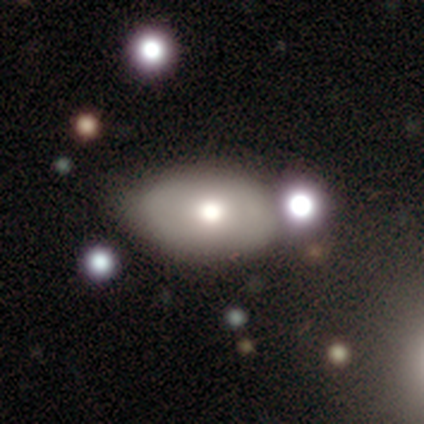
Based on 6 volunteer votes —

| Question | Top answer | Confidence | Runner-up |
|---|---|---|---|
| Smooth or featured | smooth | 67% | featured or disk (33%) |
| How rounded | in between | 100% | — |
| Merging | none | 83% | merger (17%) |